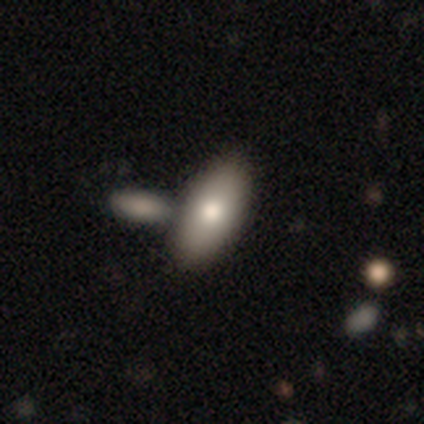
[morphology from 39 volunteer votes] This appears to be a smooth galaxy with no disk features (79%) that is in between round and cigar-shaped (84%). Merging: none (57%).